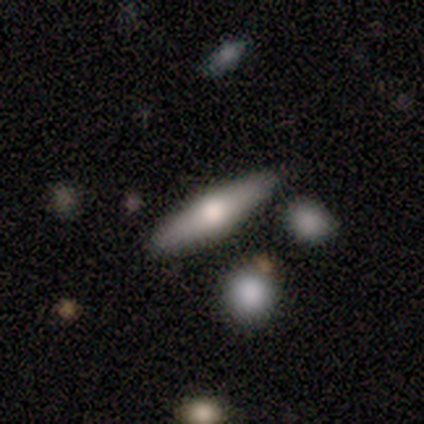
Smooth or featured? 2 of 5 (40%, tied with featured or disk) said smooth. How rounded? 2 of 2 (100%) said cigar-shaped. Merging? 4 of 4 (100%) said none.